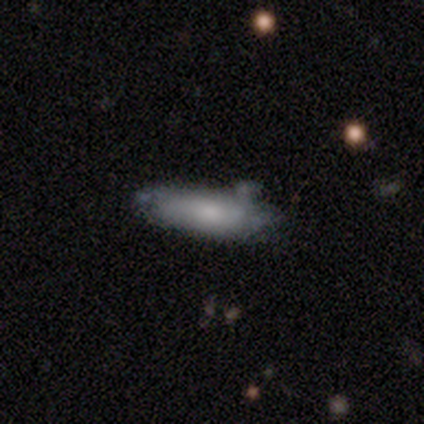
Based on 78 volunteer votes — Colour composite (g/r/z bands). It shows a smooth galaxy with no disk features (69%) that is in between round and cigar-shaped (61%). Merging: none (26%).